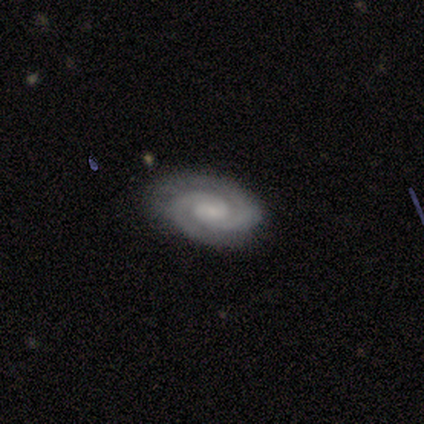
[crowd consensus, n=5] smooth_or_featured: featured or disk (p=0.80) [alt: smooth p=0.20]
disk_edge_on: no (p=1.00)
bar: no (p=0.75) [alt: weak p=0.25]
has_spiral_arms: yes (p=1.00)
spiral_winding: tight (p=1.00)
spiral_arm_count: 2 (p=0.50) [tied with: 3 p=0.50]
bulge_size: small (p=0.75) [alt: moderate p=0.25]
merging: none (p=1.00)